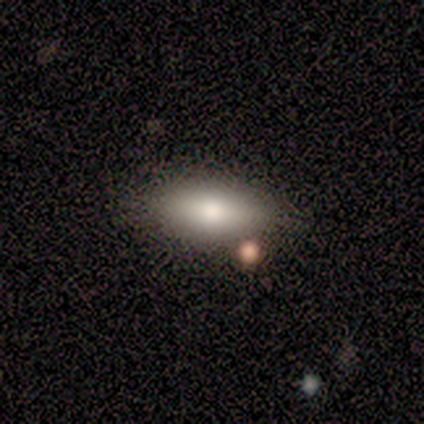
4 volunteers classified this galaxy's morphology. This is possibly a smooth galaxy (50%, tied with featured or disk). How rounded: clearly in between (100%). Merging: likely none (75%).